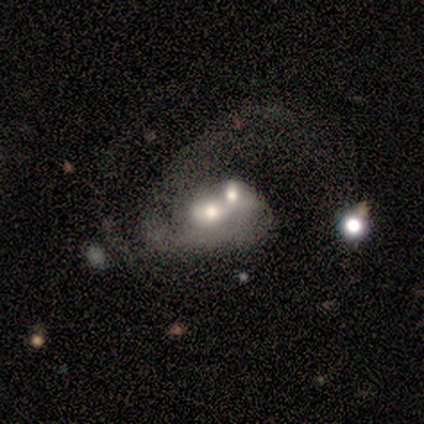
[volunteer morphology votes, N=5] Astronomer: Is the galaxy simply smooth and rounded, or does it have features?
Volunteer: featured or disk — 100%.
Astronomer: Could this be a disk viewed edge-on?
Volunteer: no — 100%.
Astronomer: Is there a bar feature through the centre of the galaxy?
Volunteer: no — 100%.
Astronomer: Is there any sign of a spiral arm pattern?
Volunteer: no — 60% (runner-up: yes, 40%).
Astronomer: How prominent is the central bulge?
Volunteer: moderate — 80%.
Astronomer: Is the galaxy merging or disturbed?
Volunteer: merger — 60% (runner-up: major disturbance, 40%).